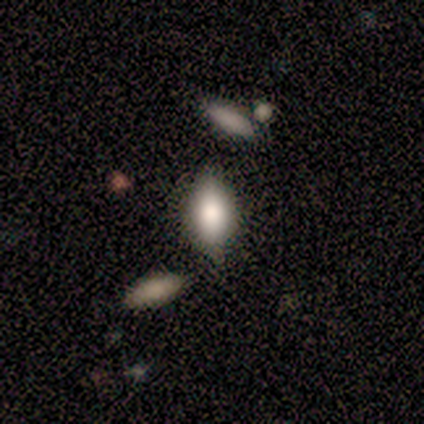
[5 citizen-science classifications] smooth_or_featured: smooth (p=0.60) [alt: featured or disk p=0.20]
how_rounded: in between (p=1.00)
merging: none (p=0.75) [alt: minor disturbance p=0.25]